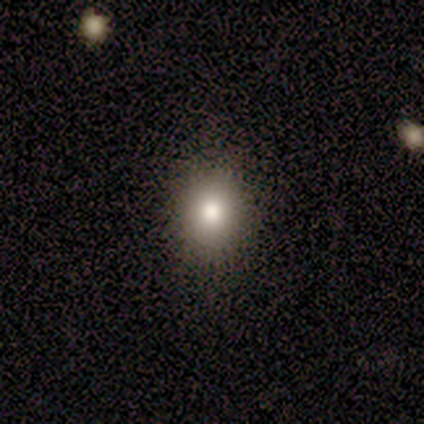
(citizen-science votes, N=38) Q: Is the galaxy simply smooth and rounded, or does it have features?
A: smooth — 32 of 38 (84%).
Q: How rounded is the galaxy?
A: round — 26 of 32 (81%).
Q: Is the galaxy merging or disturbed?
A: none — 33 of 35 (94%).